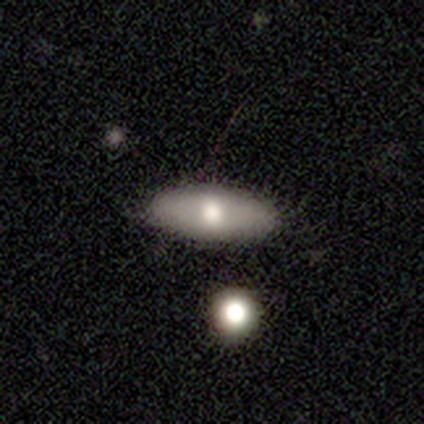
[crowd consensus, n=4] Smooth or featured? smooth (100%)
How rounded? in between (50%, tied with cigar-shaped)
Merging? none (75%)